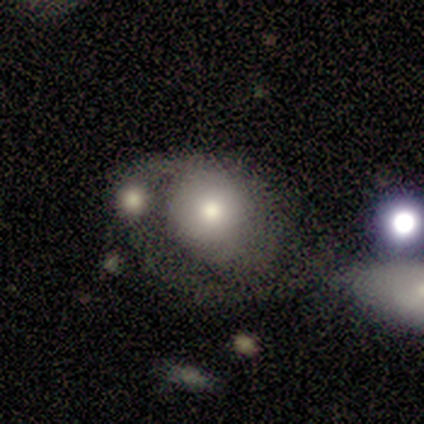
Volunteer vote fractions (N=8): Q: Smooth or featured?
A: featured or disk (62%); runner-up: smooth (25%)
Q: Edge-on disk?
A: no (100%)
Q: Bar?
A: no (80%); runner-up: strong (20%)
Q: Spiral arms?
A: yes (60%); runner-up: no (40%)
Q: Spiral winding?
A: medium (67%); runner-up: tight (33%)
Q: Spiral arm count?
A: 1 (67%); runner-up: 2 (33%)
Q: Bulge size?
A: moderate (60%); runner-up: large (20%)
Q: Merging?
A: none (29%); tied with: minor disturbance (29%); major disturbance (29%)